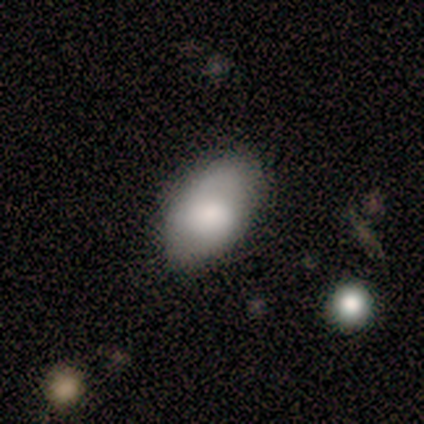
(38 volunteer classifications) smooth-or-featured: smooth: 79% | featured or disk: 11% | star or artifact: 11%
  how-rounded: in between: 100% | round: 0% | cigar-shaped: 0%
  merging: none: 71% | minor disturbance: 29% | major disturbance: 0% | merger: 0%